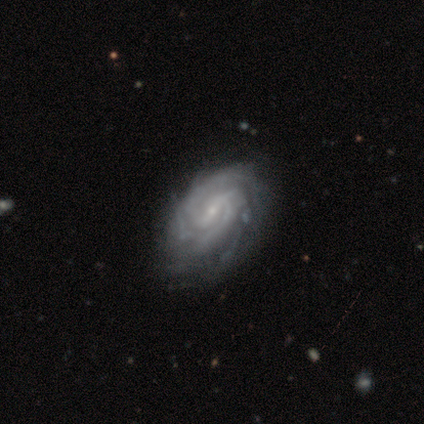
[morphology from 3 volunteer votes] smooth-or-featured: featured or disk: 100% | smooth: 0% | star or artifact: 0%
  disk-edge-on: no: 100% | yes: 0%
    bar: strong: 67% | weak: 33% | no: 0%
    has-spiral-arms: yes: 100% | no: 0%
      spiral-winding: tight: 100% | medium: 0% | loose: 0%
      spiral-arm-count: 2: 67% | 4: 33% | 1: 0% | 3: 0% | more than 4: 0% | can't tell: 0%
    bulge-size: small: 67% | none: 33% | dominant: 0% | large: 0% | moderate: 0%
  merging: none: 67% | minor disturbance: 33% | major disturbance: 0% | merger: 0%